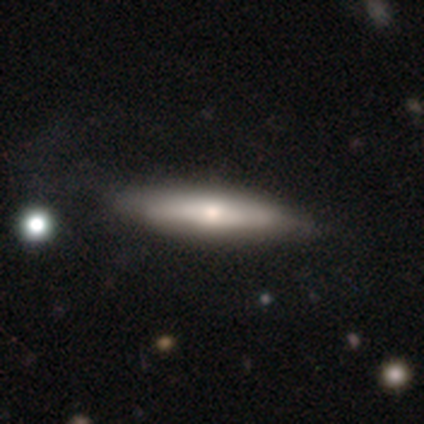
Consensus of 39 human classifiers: A smooth galaxy with no disk features (46%, tied with featured or disk) that is cigar-shaped (78%). Merging: none (47%).